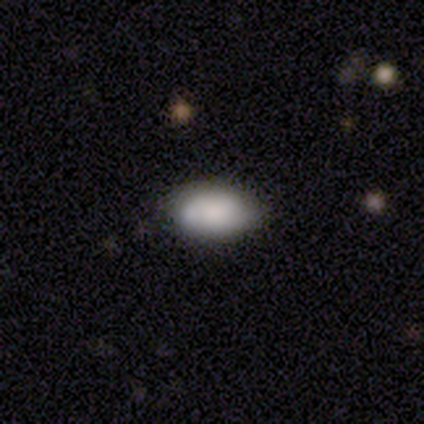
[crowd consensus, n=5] This is clearly a smooth galaxy (80%). How rounded: clearly in between (100%). Merging: clearly none (100%).